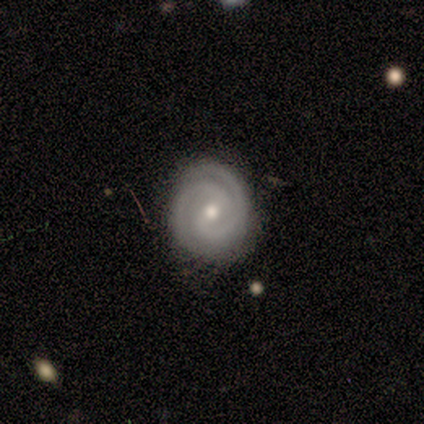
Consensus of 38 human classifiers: This appears to be a featured or disk galaxy (82%) with a weak bar (61%), 2 (84%) tight (74%) spiral arms (100%) and a small central bulge (48%). Merging: none (75%).